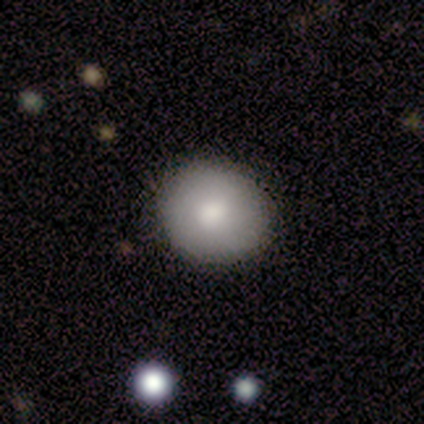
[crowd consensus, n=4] A smooth galaxy with no disk features (100%) that is round (100%). Merging: none (100%).